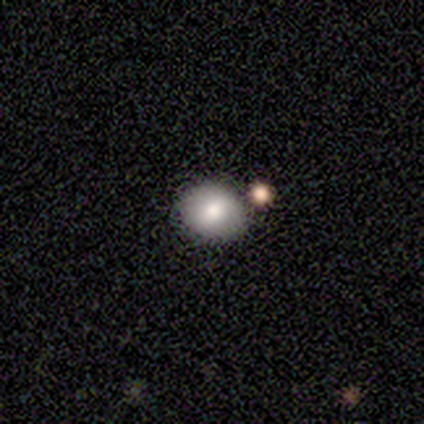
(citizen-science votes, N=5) Q: Smooth or featured?
A: smooth (80%); runner-up: featured or disk (20%)
Q: How rounded?
A: round (100%)
Q: Merging?
A: none (100%)